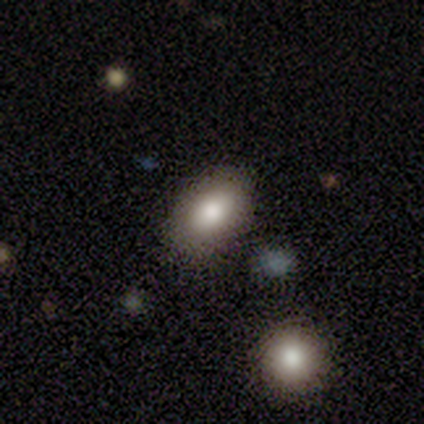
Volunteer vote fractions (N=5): Smooth or featured? 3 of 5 (60%) said smooth. How rounded? 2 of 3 (67%) said in between. Merging? 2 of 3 (67%) said none.